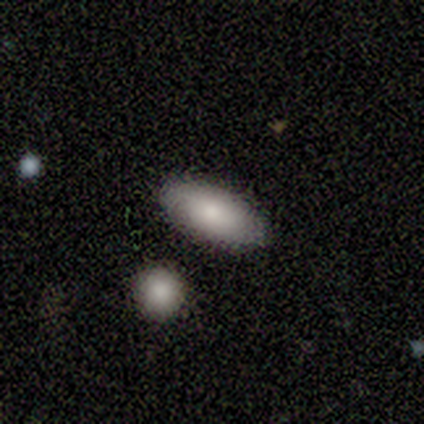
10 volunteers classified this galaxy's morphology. type=smooth (70%); roundness=in between (100%); merging=none (90%).